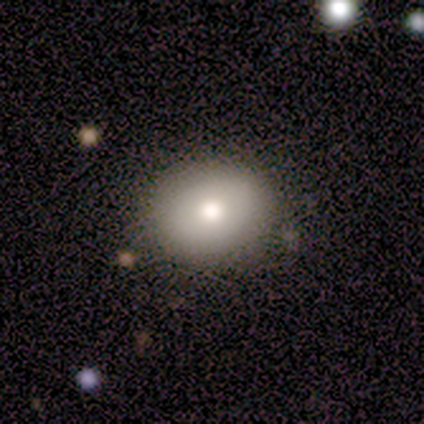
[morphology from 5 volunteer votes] Overall: smooth (60%; featured or disk 40%). How rounded: round (100%). Merging: none (100%).